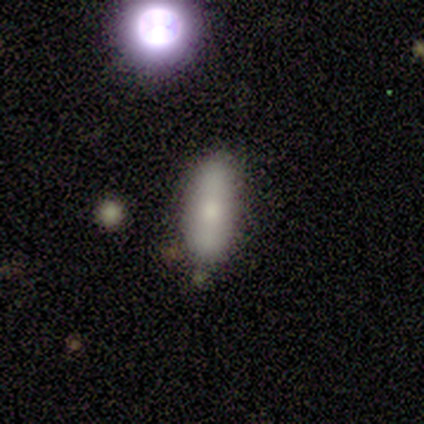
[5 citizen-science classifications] This is clearly a smooth galaxy (80%). How rounded: possibly in between (50%, tied with cigar-shaped). Merging: clearly none (100%).